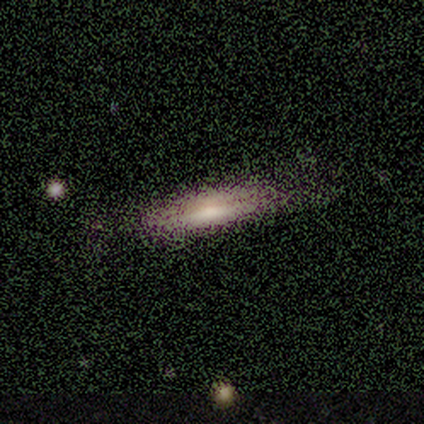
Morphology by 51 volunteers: type=smooth (59%); roundness=cigar-shaped (60%); merging=none (81%).